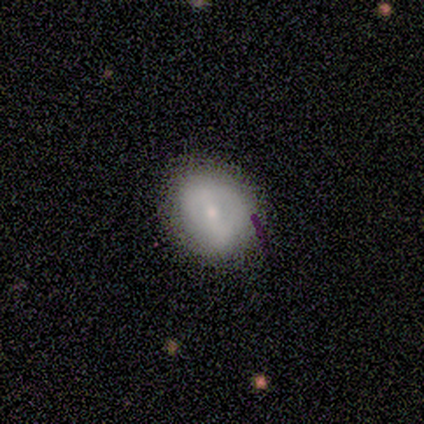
smooth_or_featured: smooth (p=0.75) [alt: featured or disk p=0.25]
how_rounded: round (p=0.67) [alt: in between p=0.33]
merging: minor disturbance (p=0.75) [alt: none p=0.25]